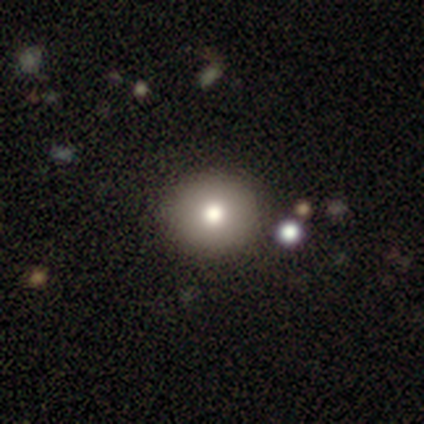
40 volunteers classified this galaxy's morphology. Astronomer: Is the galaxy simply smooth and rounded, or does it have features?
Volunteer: smooth — 78%.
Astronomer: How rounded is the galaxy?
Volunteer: round — 90%.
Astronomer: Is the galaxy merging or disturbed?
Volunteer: none — 69%.